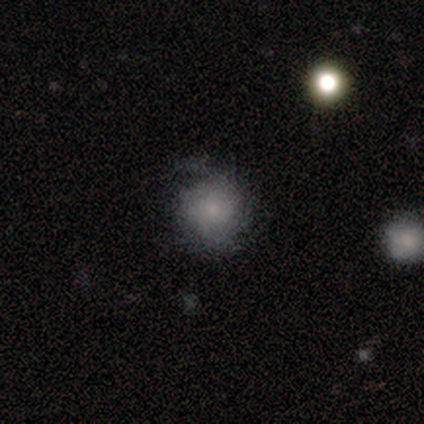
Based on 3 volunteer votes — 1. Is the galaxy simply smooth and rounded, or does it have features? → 67% smooth, 33% featured or disk, 0% star or artifact.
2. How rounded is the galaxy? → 50% round (tied), 50% in between (tied), 0% cigar-shaped.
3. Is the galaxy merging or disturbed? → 67% none, 33% minor disturbance, 0% major disturbance, 0% merger.